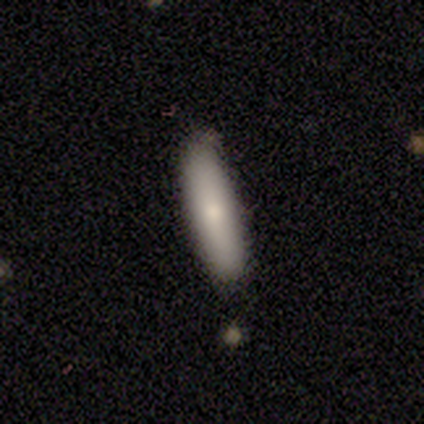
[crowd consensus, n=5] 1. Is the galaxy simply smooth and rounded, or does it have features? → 60% smooth, 40% featured or disk, 0% star or artifact.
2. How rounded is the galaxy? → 100% cigar-shaped, 0% round, 0% in between.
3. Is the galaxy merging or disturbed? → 100% none, 0% minor disturbance, 0% major disturbance, 0% merger.